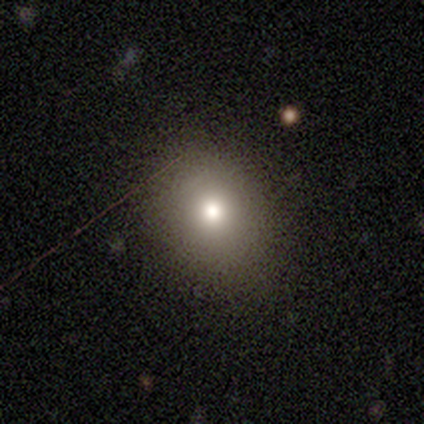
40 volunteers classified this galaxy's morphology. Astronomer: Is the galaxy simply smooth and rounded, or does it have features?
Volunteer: smooth — 80%.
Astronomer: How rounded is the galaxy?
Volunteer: round — 66%.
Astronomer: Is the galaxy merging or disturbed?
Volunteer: none — 85%.